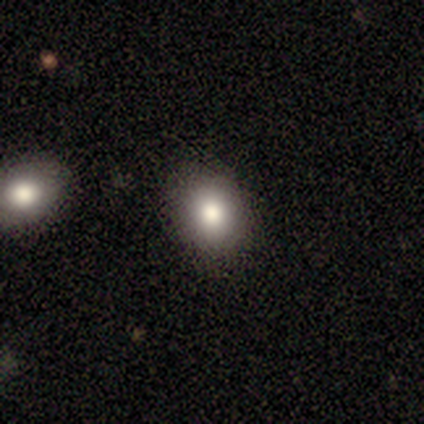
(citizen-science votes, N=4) smooth-or-featured: smooth: 100% | featured or disk: 0% | star or artifact: 0%
  how-rounded: in between: 75% | round: 25% | cigar-shaped: 0%
  merging: none: 100% | minor disturbance: 0% | major disturbance: 0% | merger: 0%